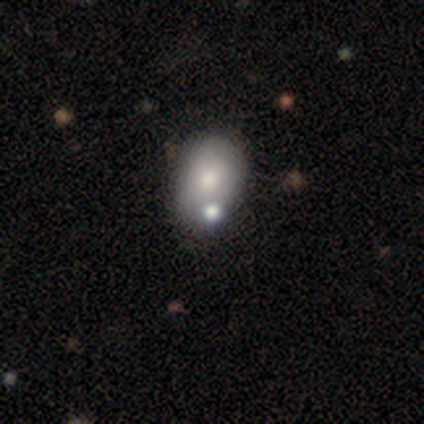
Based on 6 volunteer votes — smooth-or-featured: smooth: 83% | featured or disk: 17% | star or artifact: 0%
  how-rounded: in between: 80% | round: 20% | cigar-shaped: 0%
  merging: none: 67% | minor disturbance: 17% | merger: 17% | major disturbance: 0%